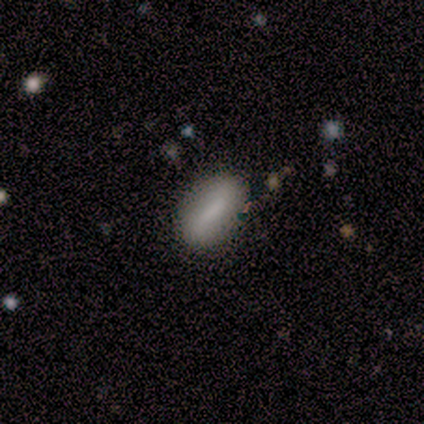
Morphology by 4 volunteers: smooth-or-featured: smooth: 100% | featured or disk: 0% | star or artifact: 0%
  how-rounded: in between: 75% | cigar-shaped: 25% | round: 0%
  merging: none: 100% | minor disturbance: 0% | major disturbance: 0% | merger: 0%